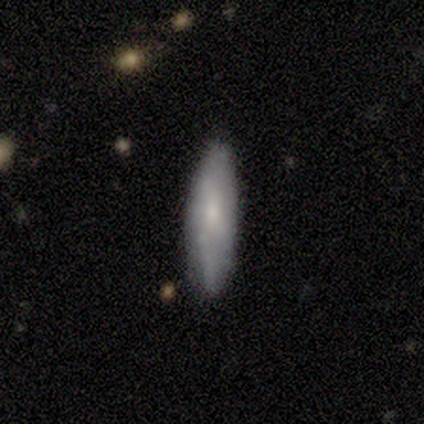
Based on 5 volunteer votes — Morphology: type=smooth (80%); roundness=cigar-shaped (75%); merging=none (80%).